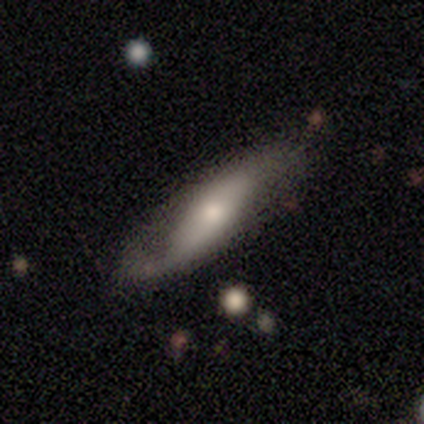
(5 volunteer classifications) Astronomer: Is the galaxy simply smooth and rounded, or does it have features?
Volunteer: featured or disk — 80%.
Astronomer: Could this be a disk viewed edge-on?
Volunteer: no — 75%.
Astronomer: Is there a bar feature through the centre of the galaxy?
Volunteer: no — 67%.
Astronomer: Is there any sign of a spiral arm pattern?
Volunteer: yes — 67%.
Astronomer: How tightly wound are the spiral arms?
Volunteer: loose — 100%.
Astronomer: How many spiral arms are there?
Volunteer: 1 — 50%, tied with 2 at 50%.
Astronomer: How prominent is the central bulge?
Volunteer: moderate — 67%.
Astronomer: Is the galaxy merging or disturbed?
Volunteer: none — 60% (runner-up: minor disturbance, 40%).